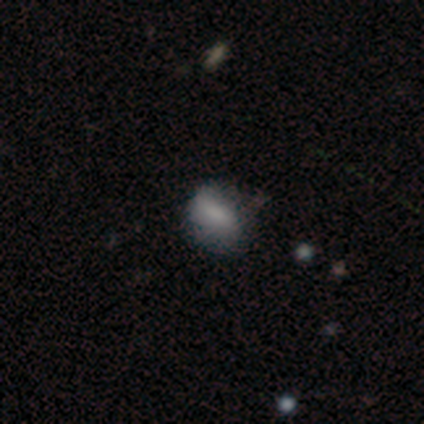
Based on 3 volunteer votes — featured or disk 67%, star or artifact 33%, smooth 0%. Down the decision tree: edge-on disk — no (100%); bar — strong (50%, tied with weak); spiral arms — no (100%); bulge size — small (100%); merging — minor disturbance (50%, tied with major disturbance).